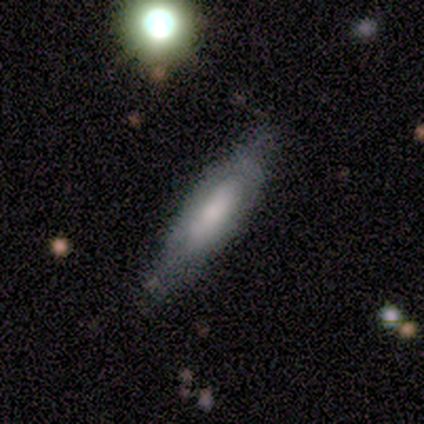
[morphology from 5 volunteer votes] A smooth galaxy with no disk features (80%) that is in between round and cigar-shaped (50%, tied with cigar-shaped).

Vote fractions:
- Smooth or featured? smooth: 80% / featured or disk: 20% / star or artifact: 0%
- How rounded? in between: 50% (tied) / cigar-shaped: 50% (tied) / round: 0%
- Merging? none: 80% / major disturbance: 20% / minor disturbance: 0% / merger: 0%